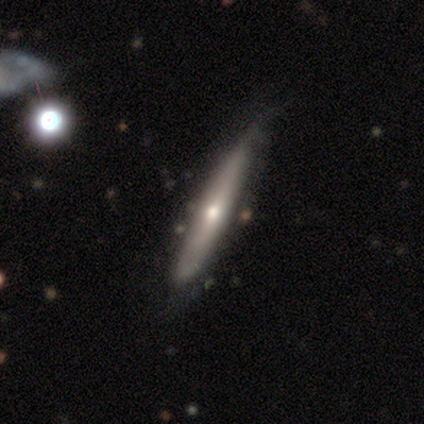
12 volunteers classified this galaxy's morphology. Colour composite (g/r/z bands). It shows a featured or disk galaxy (67%) viewed edge-on (50%, tied with no) with no central bulge (50%, tied with rounded). Merging: none (70%).